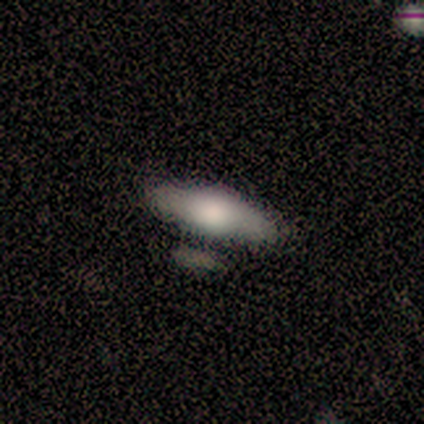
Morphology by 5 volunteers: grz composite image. It shows a smooth galaxy with no disk features (60%) that is in between round and cigar-shaped (67%). Merging: none (40%).